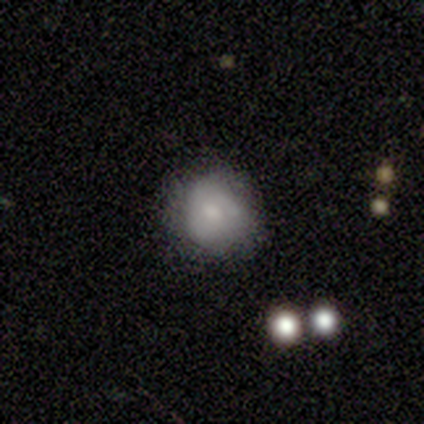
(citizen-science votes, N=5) smooth 80%, star or artifact 20%, featured or disk 0%. Down the decision tree: how rounded — round (50%, tied with in between); merging — none (50%, tied with minor disturbance).